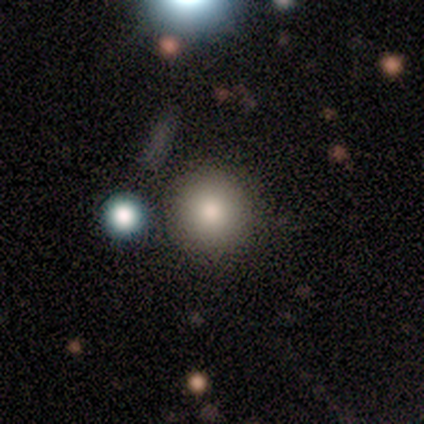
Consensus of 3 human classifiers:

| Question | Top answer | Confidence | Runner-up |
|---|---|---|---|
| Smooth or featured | smooth | 67% | star or artifact (33%) |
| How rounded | round | 50% | tied: in between (50%) |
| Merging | none | 50% | tied: minor disturbance (50%) |